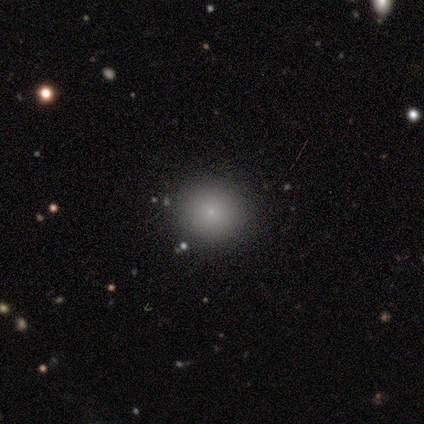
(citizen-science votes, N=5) Smooth or featured? smooth (80%)
How rounded? round (100%)
Merging? none (75%)